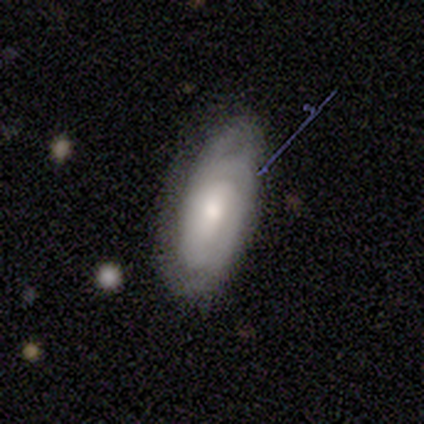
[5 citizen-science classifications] A featured or disk galaxy (80%) with no bar (75%), 2 (75%) tight (50%, tied with medium) spiral arms (100%) and a moderate central bulge (50%).

Vote fractions:
- Smooth or featured? featured or disk: 80% / smooth: 20% / star or artifact: 0%
- Edge-on disk? no: 100% / yes: 0%
- Bar? no: 75% / weak: 25% / strong: 0%
- Spiral arms? yes: 100% / no: 0%
- Spiral winding? tight: 50% (tied) / medium: 50% (tied) / loose: 0%
- Spiral arm count? 2: 75% / can't tell: 25% / 1: 0% / 3: 0% / 4: 0% / more than 4: 0%
- Bulge size? moderate: 50% / large: 25% / small: 25% / dominant: 0% / none: 0%
- Merging? none: 60% / minor disturbance: 40% / major disturbance: 0% / merger: 0%